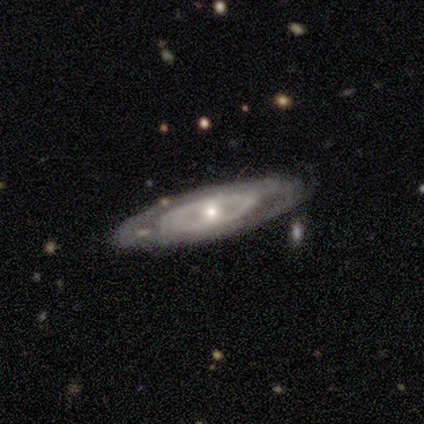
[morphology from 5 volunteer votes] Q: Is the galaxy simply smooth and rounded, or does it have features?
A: featured or disk — 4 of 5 (80%).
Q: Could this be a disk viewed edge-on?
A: no — 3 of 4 (75%).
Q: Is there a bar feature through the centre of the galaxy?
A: no — 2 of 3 (67%).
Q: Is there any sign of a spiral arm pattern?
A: no — 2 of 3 (67%).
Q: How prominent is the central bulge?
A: small — 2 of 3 (67%).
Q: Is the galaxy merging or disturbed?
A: none — 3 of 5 (60%).